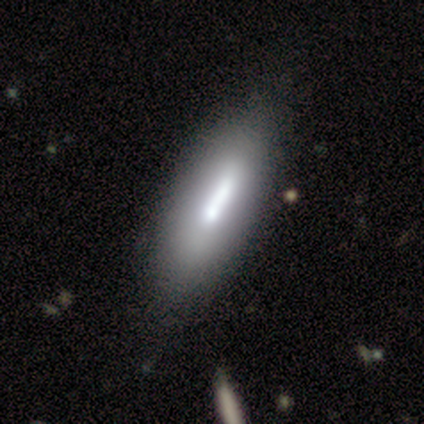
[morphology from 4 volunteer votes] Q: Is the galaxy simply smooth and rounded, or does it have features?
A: smooth — 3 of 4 (75%).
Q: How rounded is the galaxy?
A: cigar-shaped — 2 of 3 (67%).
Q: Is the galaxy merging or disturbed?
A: none — 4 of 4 (100%).